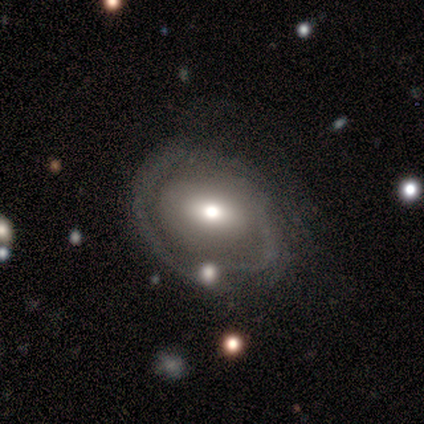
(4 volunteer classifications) Smooth or featured: featured or disk — 100%
Edge-on disk: no — 100%
Bar: no — 75% (strong — 25%)
Spiral arms: yes — 50% (tied with no — 50%)
Spiral winding: loose — 100%
Spiral arm count: 1 — 100%
Bulge size: small — 50% (large — 25%)
Merging: none — 50% (minor disturbance — 25%)